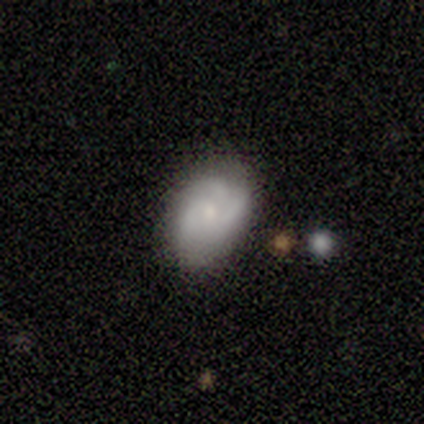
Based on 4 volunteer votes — Morphology: type=smooth (50%, tied with featured or disk); roundness=in between (100%); merging=none (50%).